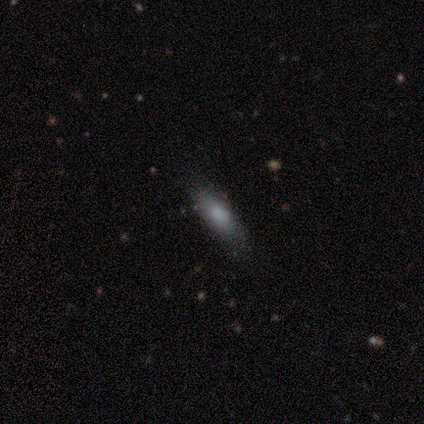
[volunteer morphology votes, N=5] smooth-or-featured: smooth: 100% | featured or disk: 0% | star or artifact: 0%
  how-rounded: in between: 80% | cigar-shaped: 20% | round: 0%
  merging: none: 100% | minor disturbance: 0% | major disturbance: 0% | merger: 0%